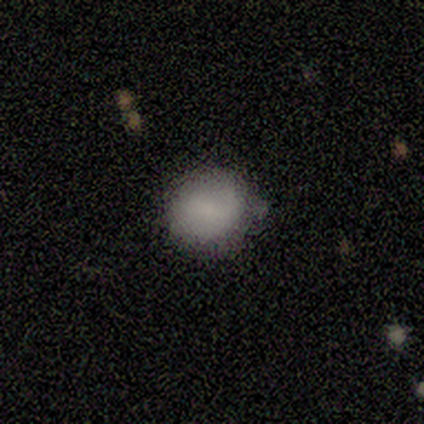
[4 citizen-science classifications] Smooth or featured? smooth (100%)
How rounded? round (100%)
Merging? none (100%)